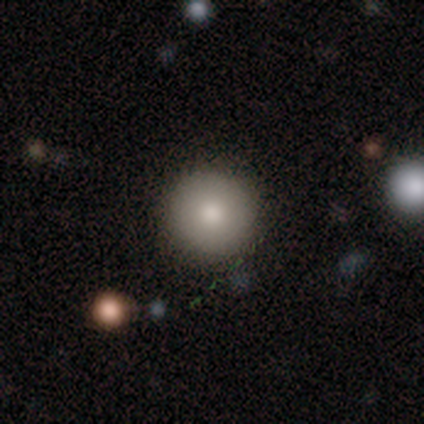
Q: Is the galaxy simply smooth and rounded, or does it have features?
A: smooth — 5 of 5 (100%).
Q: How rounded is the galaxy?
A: round — 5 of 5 (100%).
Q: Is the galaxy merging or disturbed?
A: none — 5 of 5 (100%).